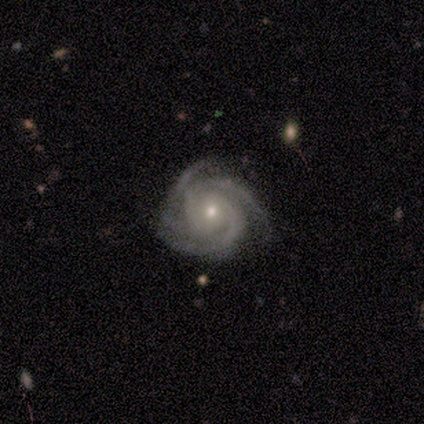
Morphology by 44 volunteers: smooth-or-featured: featured or disk: 95% | star or artifact: 5% | smooth: 0%
  disk-edge-on: no: 100% | yes: 0%
    bar: no: 74% | weak: 26% | strong: 0%
    has-spiral-arms: yes: 100% | no: 0%
      spiral-winding: tight: 71% | medium: 26% | loose: 2%
      spiral-arm-count: 3: 50% | 2: 24% | 4: 21% | can't tell: 5% | 1: 0% | more than 4: 0%
    bulge-size: small: 62% | moderate: 36% | large: 2% | dominant: 0% | none: 0%
  merging: none: 74% | minor disturbance: 21% | major disturbance: 5% | merger: 0%